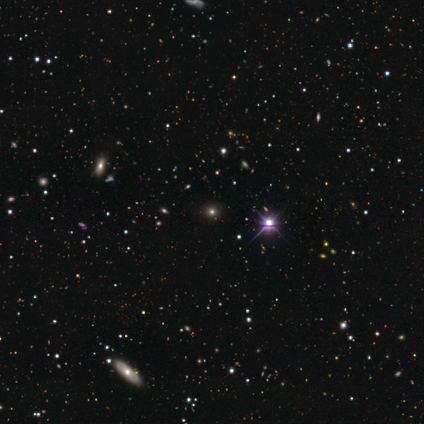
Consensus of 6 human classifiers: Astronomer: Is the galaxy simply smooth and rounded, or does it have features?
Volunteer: star or artifact — 83%.